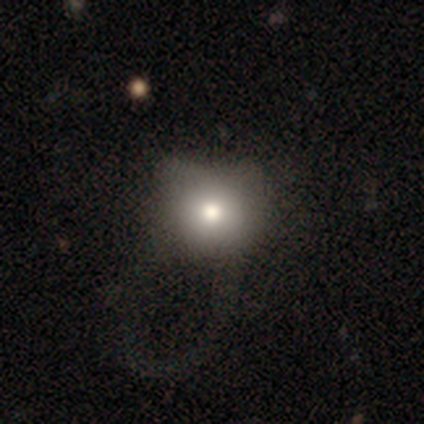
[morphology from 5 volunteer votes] smooth 80%, featured or disk 20%, star or artifact 0%. Down the decision tree: how rounded — round (100%); merging — minor disturbance (40%, tied with major disturbance).